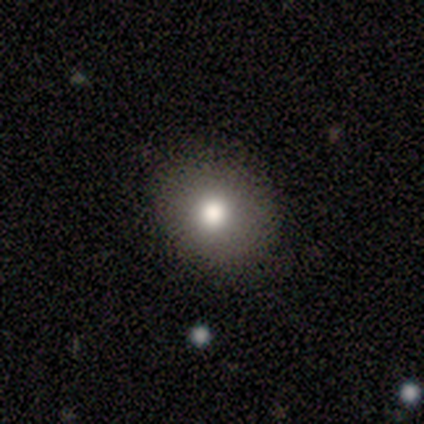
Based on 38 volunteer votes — Smooth or featured? 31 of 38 (82%) said smooth. How rounded? 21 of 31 (68%) said round. Merging? 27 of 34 (79%) said none.